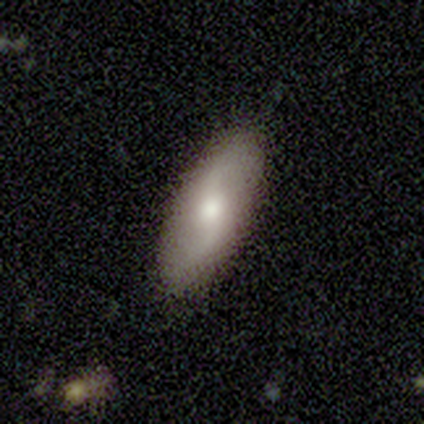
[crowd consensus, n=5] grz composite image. It shows a featured or disk galaxy (60%) with no bar (67%), 2 (100%) loose (100%) spiral arms (100%) and a moderate central bulge (67%). Merging: none (100%).